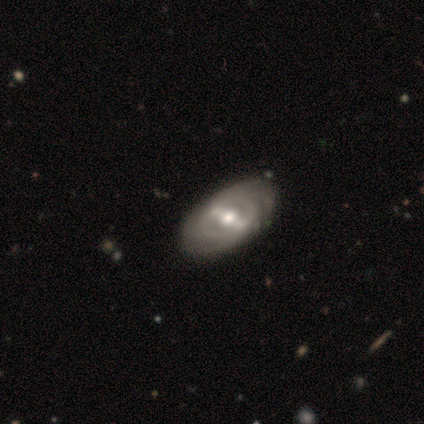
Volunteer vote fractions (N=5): smooth_or_featured: featured or disk (p=0.80) [alt: star or artifact p=0.20]
disk_edge_on: no (p=1.00)
bar: strong (p=1.00)
has_spiral_arms: yes (p=1.00)
spiral_winding: tight (p=0.75) [alt: medium p=0.25]
spiral_arm_count: 2 (p=1.00)
bulge_size: moderate (p=1.00)
merging: none (p=1.00)